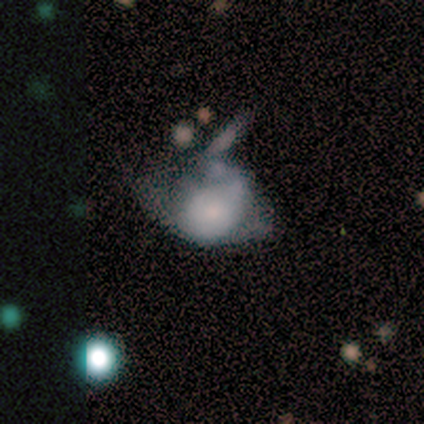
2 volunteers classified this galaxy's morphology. This appears to be a featured or disk galaxy (100%) with no bar (100%), no spiral arms (100%) and a moderate central bulge (50%, tied with none). Merging: major disturbance (100%).